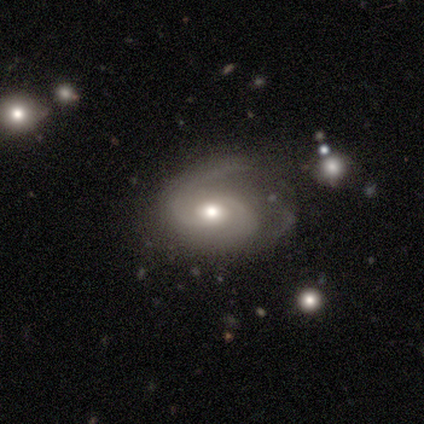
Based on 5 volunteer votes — A featured or disk galaxy (100%) with a weak bar (60%), 2 (80%) tight (40%, tied with loose) spiral arms (100%) and a moderate central bulge (100%).

Vote fractions:
- Smooth or featured? featured or disk: 100% / smooth: 0% / star or artifact: 0%
- Edge-on disk? no: 100% / yes: 0%
- Bar? weak: 60% / no: 40% / strong: 0%
- Spiral arms? yes: 100% / no: 0%
- Spiral winding? tight: 40% (tied) / loose: 40% (tied) / medium: 20%
- Spiral arm count? 2: 80% / 1: 20% / 3: 0% / 4: 0% / more than 4: 0% / can't tell: 0%
- Bulge size? moderate: 100% / dominant: 0% / large: 0% / small: 0% / none: 0%
- Merging? none: 60% / minor disturbance: 40% / major disturbance: 0% / merger: 0%